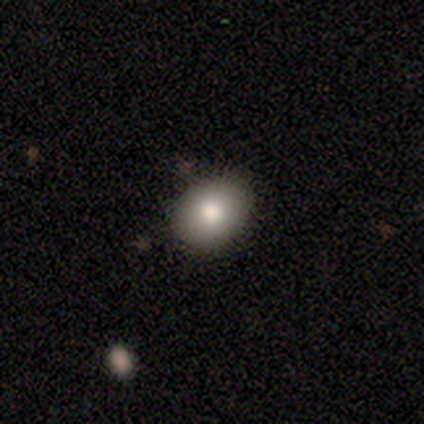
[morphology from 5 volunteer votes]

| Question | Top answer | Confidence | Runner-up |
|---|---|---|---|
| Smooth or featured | smooth | 60% | featured or disk (40%) |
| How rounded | round | 100% | — |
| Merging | none | 80% | minor disturbance (20%) |